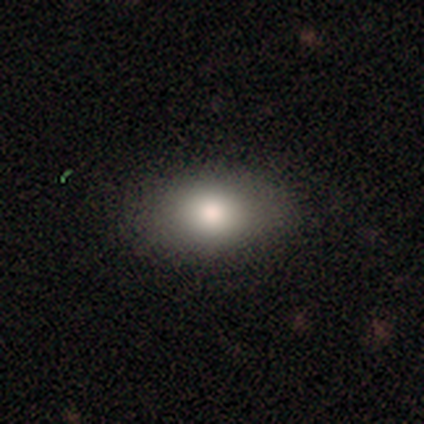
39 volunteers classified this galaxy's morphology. A smooth galaxy with no disk features (82%) that is in between round and cigar-shaped (81%). Merging: none (74%).